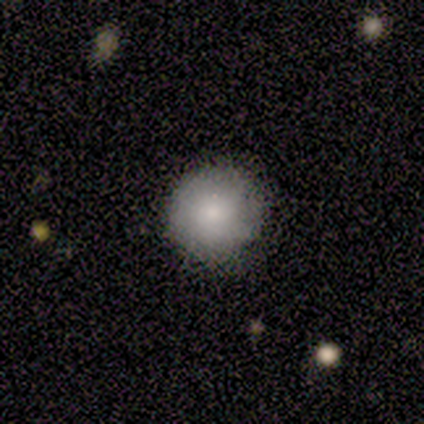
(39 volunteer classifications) smooth_or_featured: smooth (p=0.74) [alt: star or artifact p=0.15]
how_rounded: round (p=0.97) [alt: in between p=0.03]
merging: none (p=0.85) [alt: minor disturbance p=0.15]